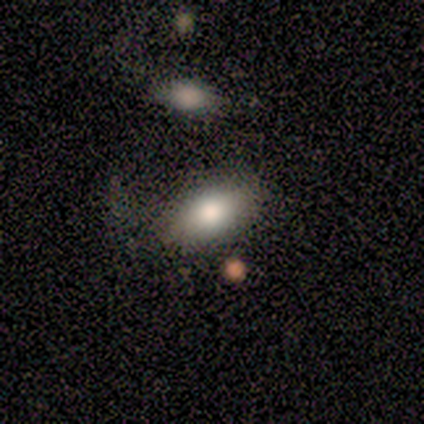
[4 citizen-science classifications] Smooth or featured? 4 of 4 (100%) said smooth. How rounded? 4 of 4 (100%) said in between. Merging? 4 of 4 (100%) said none.